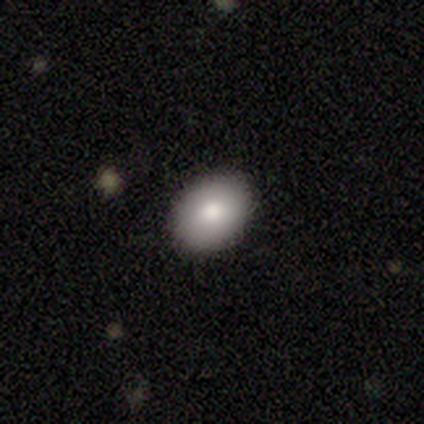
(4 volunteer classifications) Overall: smooth (75%). How rounded: in between (67%; round 33%). Merging: none (75%).